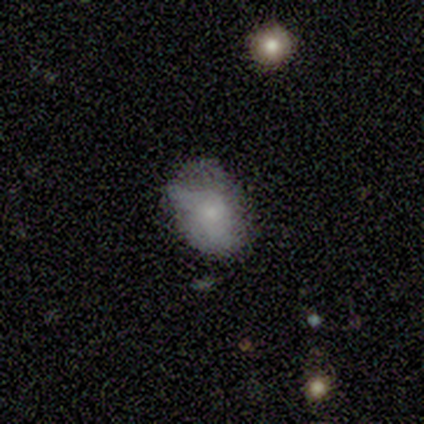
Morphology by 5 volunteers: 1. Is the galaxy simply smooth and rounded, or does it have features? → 80% smooth, 20% featured or disk, 0% star or artifact.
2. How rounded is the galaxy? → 100% in between, 0% round, 0% cigar-shaped.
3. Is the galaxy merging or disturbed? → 60% none, 20% minor disturbance, 20% major disturbance, 0% merger.